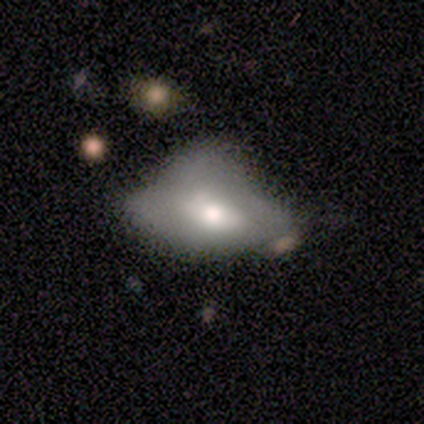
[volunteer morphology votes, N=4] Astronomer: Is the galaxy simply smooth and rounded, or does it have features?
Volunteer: smooth — 75%.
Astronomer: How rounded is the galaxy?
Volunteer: in between — 100%.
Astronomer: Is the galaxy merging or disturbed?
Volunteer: major disturbance — 50%.